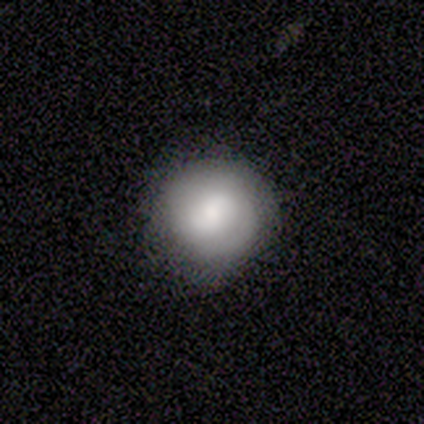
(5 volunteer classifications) Smooth or featured? 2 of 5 (40%, tied with featured or disk) said smooth. How rounded? 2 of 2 (100%) said round. Merging? 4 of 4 (100%) said none.